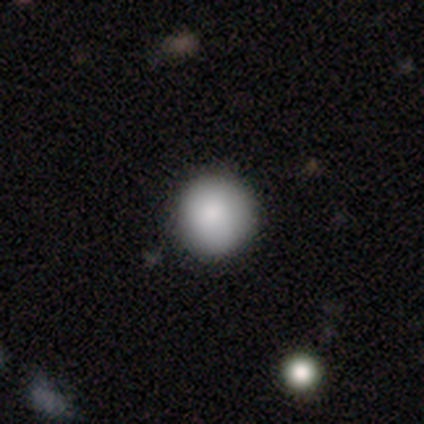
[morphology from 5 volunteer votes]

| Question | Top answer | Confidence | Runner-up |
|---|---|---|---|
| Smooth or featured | smooth | 80% | star or artifact (20%) |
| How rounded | round | 100% | — |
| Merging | none | 100% | — |